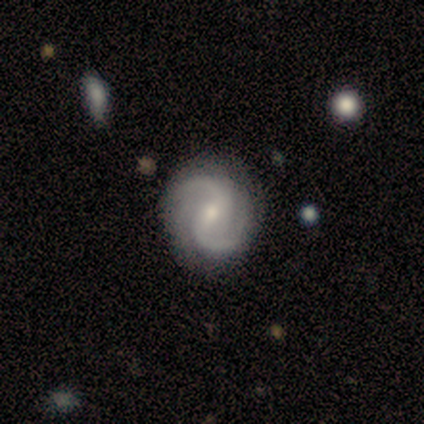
featured or disk 80%, smooth 20%, star or artifact 0%. Down the decision tree: edge-on disk — no (100%); bar — no (50%); spiral arms — yes (100%); spiral arm count — 2 (100%); spiral winding — medium (75%); bulge size — small (100%); merging — none (80%).